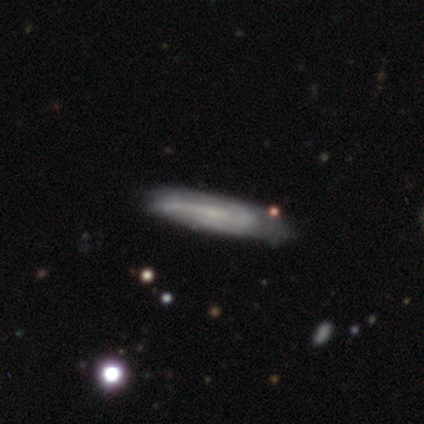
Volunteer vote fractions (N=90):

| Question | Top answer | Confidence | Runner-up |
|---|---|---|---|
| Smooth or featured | featured or disk | 61% | smooth (30%) |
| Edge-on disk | no | 53% | yes (47%) |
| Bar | no | 72% | weak (24%) |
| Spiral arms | yes | 76% | no (24%) |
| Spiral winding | medium | 50% | loose (27%) |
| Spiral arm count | can't tell | 41% | 3 (36%) |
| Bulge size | small | 59% | none (34%) |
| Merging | none | 74% | minor disturbance (22%) |